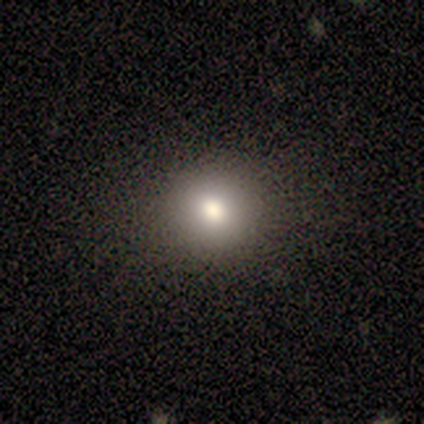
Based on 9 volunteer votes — smooth 78%, featured or disk 22%, star or artifact 0%. Down the decision tree: how rounded — round (86%); merging — none (89%).